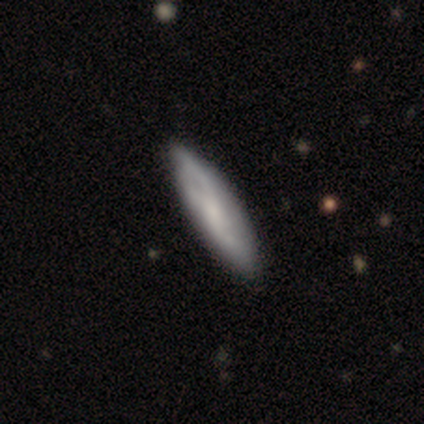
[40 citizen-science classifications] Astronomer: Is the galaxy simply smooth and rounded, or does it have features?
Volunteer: featured or disk — 50% (runner-up: smooth, 45%).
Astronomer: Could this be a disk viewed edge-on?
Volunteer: no — 65%.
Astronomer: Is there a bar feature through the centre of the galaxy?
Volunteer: no — 54% (runner-up: weak, 38%).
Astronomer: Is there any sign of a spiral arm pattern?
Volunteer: yes — 85%.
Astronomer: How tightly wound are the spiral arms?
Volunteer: loose — 55%.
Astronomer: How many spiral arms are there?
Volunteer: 2 — 55% (runner-up: can't tell, 36%).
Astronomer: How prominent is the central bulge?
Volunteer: none — 38% (runner-up: small, 31%).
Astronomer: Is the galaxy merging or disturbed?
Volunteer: none — 53%.